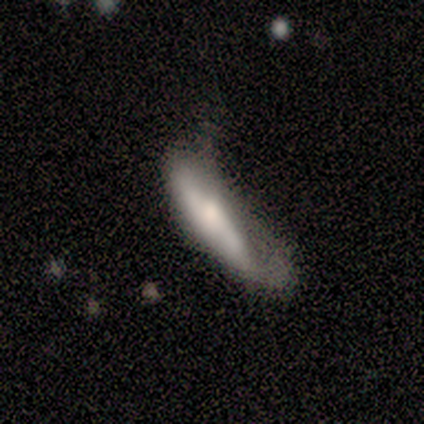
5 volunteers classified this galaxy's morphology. Q: Smooth or featured?
A: featured or disk (80%); runner-up: smooth (20%)
Q: Edge-on disk?
A: yes (50%); tied with: no (50%)
Q: Edge-on bulge?
A: rounded (100%)
Q: Merging?
A: minor disturbance (60%); runner-up: none (20%)